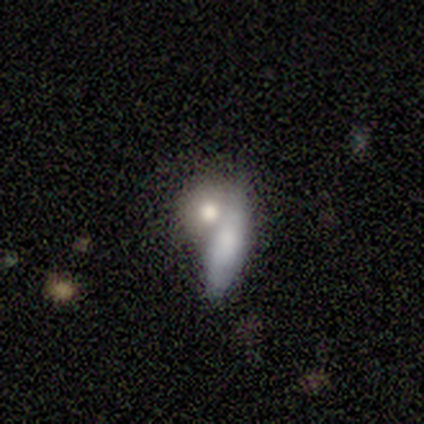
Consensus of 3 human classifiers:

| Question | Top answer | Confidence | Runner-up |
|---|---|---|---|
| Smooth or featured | smooth | 67% | featured or disk (33%) |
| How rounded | in between | 100% | — |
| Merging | merger | 67% | minor disturbance (33%) |